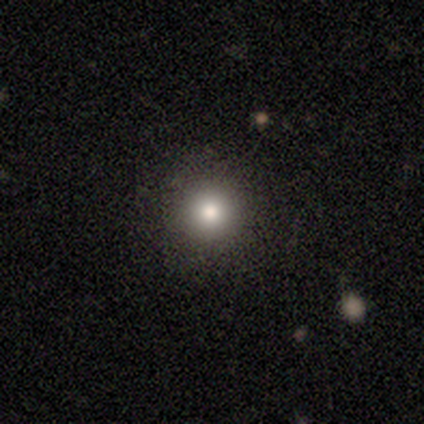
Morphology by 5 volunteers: Smooth or featured? 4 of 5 (80%) said smooth. How rounded? 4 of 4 (100%) said round. Merging? 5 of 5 (100%) said none.